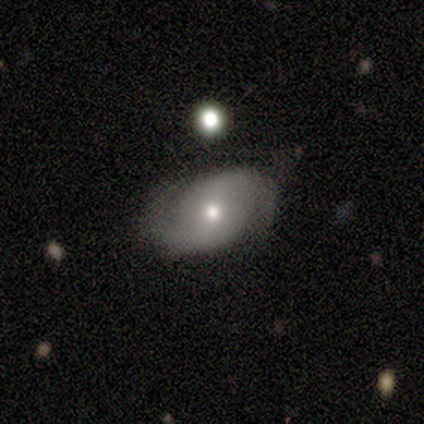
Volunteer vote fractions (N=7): Smooth or featured?
  - featured or disk: 71% *
  - smooth: 29%
  - star or artifact: 0%
Edge-on disk?
  - no: 100% *
  - yes: 0%
Bar?
  - weak: 60% *
  - no: 40%
  - strong: 0%
Spiral arms?
  - yes: 100% *
  - no: 0%
Spiral winding?
  - medium: 60% *
  - loose: 40%
  - tight: 0%
Spiral arm count?
  - 2: 80% *
  - 1: 20%
  - 3: 0%
  - 4: 0%
  - more than 4: 0%
  - can't tell: 0%
Bulge size?
  - small: 60% *
  - moderate: 40%
  - dominant: 0%
  - large: 0%
  - none: 0%
Merging?
  - none: 86% *
  - minor disturbance: 14%
  - major disturbance: 0%
  - merger: 0%